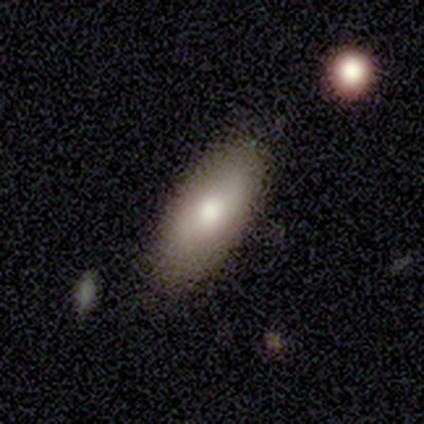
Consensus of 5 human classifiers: smooth 100%, featured or disk 0%, star or artifact 0%. Down the decision tree: how rounded — in between (100%); merging — none (100%).